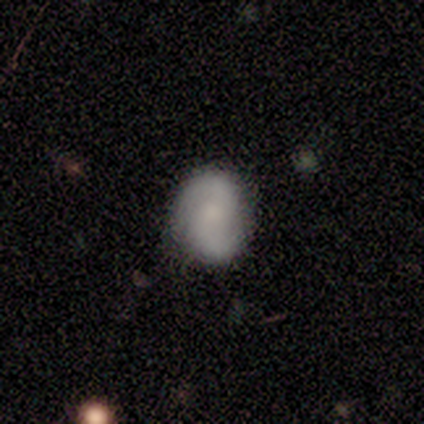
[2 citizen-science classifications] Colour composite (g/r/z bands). It shows a featured or disk galaxy (50%, tied with star or artifact) with no bar (100%), 2 (100%) medium (100%) spiral arms (100%) and a small central bulge (100%). Merging: none (100%).